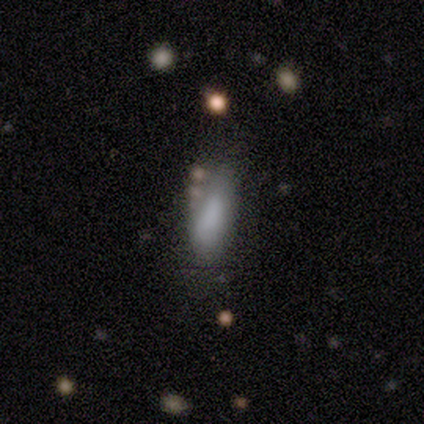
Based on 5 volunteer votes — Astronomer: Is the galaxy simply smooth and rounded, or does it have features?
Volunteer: smooth — 60%.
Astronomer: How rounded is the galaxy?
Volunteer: in between — 67%.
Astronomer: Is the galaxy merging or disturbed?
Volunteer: minor disturbance — 50%.